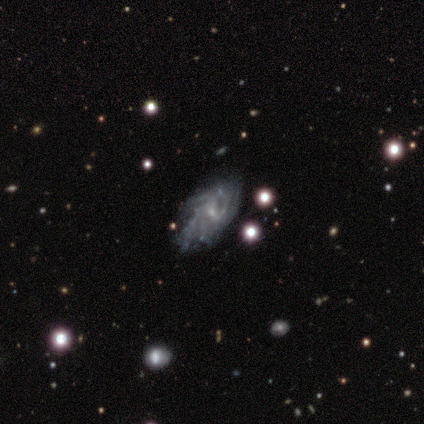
Smooth or featured? 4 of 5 (80%) said featured or disk. Edge-on disk? 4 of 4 (100%) said no. Bar? 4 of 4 (100%) said no. Spiral arms? 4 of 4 (100%) said yes. Spiral winding? 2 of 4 (50%) said tight. Spiral arm count? 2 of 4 (50%, tied with can't tell) said more than 4. Bulge size? 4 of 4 (100%) said small. Merging? 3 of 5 (60%) said none.